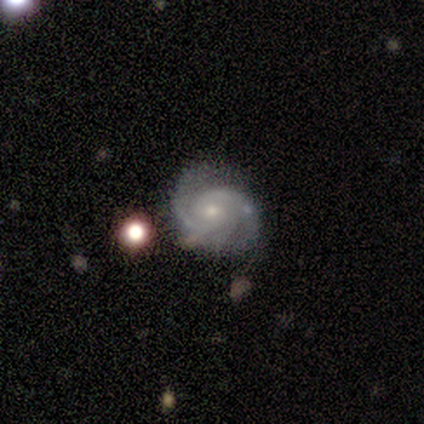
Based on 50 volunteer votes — Overall: featured or disk (92%). Edge-on disk: no (96%). Bar: no (66%; weak 27%). Spiral arms: yes (100%). Spiral arm count: 2 (66%). Spiral winding: tight (59%; medium 39%). Bulge size: small (52%; moderate 41%). Merging: none (52%; minor disturbance 35%).